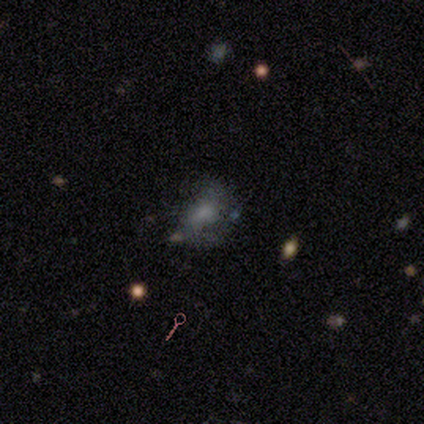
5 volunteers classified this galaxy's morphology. smooth-or-featured: smooth: 60% | featured or disk: 20% | star or artifact: 20%
  how-rounded: in between: 67% | round: 33% | cigar-shaped: 0%
  merging: none: 75% | minor disturbance: 25% | major disturbance: 0% | merger: 0%